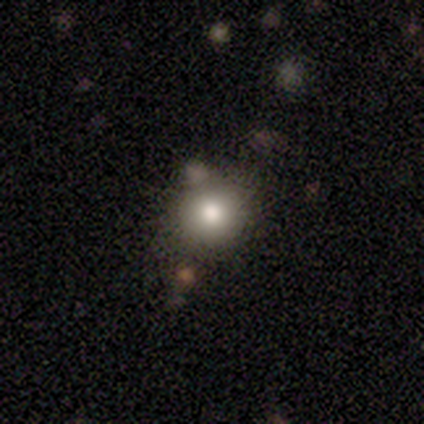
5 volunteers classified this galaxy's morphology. Overall: smooth (100%). How rounded: round (100%). Merging: none (100%).